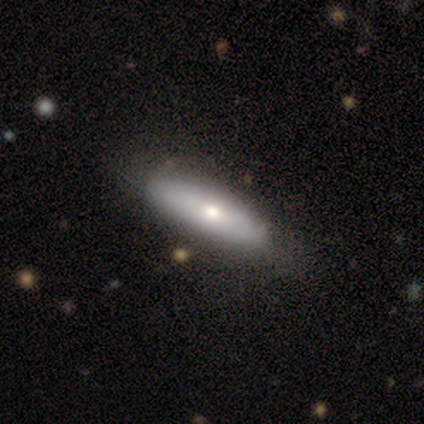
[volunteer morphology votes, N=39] This is possibly a smooth galaxy (59%). How rounded: possibly cigar-shaped (57%). Merging: likely none (62%).